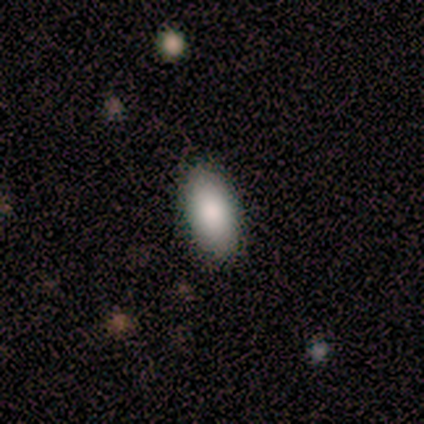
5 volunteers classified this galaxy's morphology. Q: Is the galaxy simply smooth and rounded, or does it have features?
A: smooth — 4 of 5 (80%).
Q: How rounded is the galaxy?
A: in between — 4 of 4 (100%).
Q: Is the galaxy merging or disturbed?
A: none — 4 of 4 (100%).